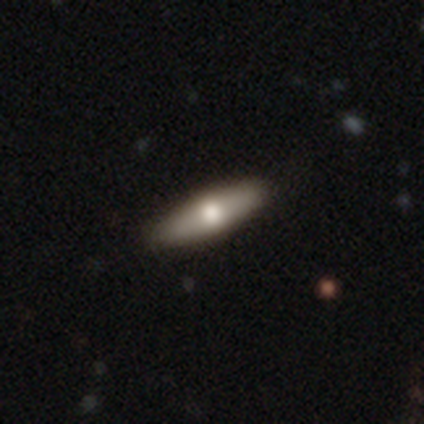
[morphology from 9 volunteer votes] A smooth galaxy with no disk features (44%, tied with featured or disk) that is cigar-shaped (100%).

Vote fractions:
- Smooth or featured? smooth: 44% (tied) / featured or disk: 44% (tied) / star or artifact: 11%
- How rounded? cigar-shaped: 100% / round: 0% / in between: 0%
- Merging? none: 88% / major disturbance: 12% / minor disturbance: 0% / merger: 0%